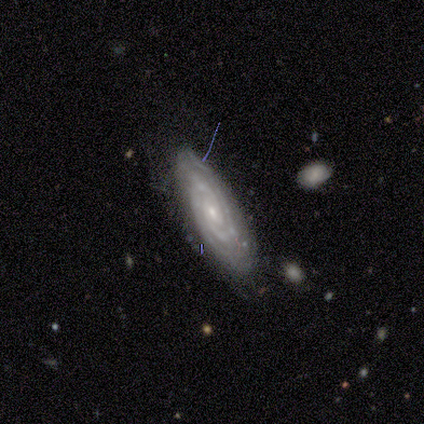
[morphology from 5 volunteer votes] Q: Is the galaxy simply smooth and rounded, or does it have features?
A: featured or disk — 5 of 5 (100%).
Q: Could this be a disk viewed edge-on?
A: no — 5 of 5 (100%).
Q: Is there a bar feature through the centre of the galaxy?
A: no — 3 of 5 (60%).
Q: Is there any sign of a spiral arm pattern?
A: yes — 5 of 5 (100%).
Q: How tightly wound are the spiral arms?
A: medium — 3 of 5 (60%).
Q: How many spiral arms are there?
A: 3 — 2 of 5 (40%).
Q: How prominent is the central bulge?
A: small — 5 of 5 (100%).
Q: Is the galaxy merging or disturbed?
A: minor disturbance — 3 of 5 (60%).